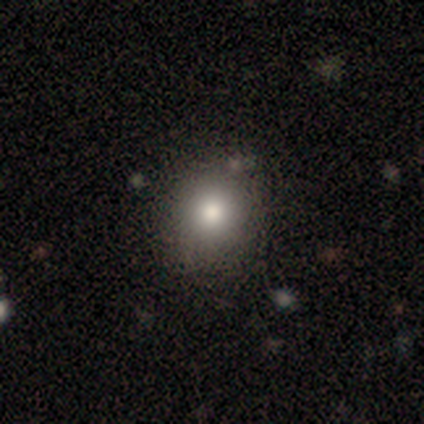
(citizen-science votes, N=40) smooth 72%, featured or disk 15%, star or artifact 12%. Down the decision tree: how rounded — round (90%); merging — none (63%).